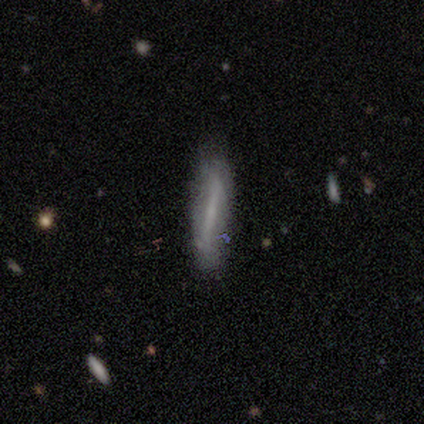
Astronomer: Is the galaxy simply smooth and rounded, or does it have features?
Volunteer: smooth — 80%.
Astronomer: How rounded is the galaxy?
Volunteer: cigar-shaped — 100%.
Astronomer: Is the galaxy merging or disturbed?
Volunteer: none — 75%.